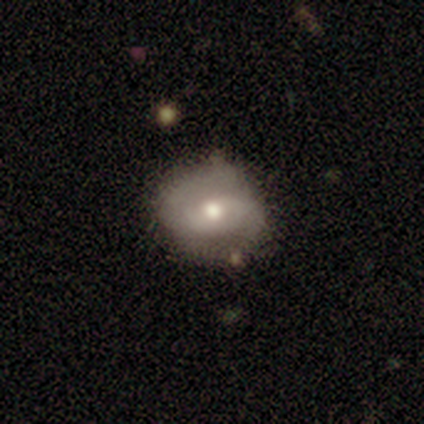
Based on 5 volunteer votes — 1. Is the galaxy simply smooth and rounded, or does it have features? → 60% smooth, 40% featured or disk, 0% star or artifact.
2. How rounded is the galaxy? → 67% in between, 33% round, 0% cigar-shaped.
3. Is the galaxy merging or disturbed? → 60% major disturbance, 40% none, 0% minor disturbance, 0% merger.